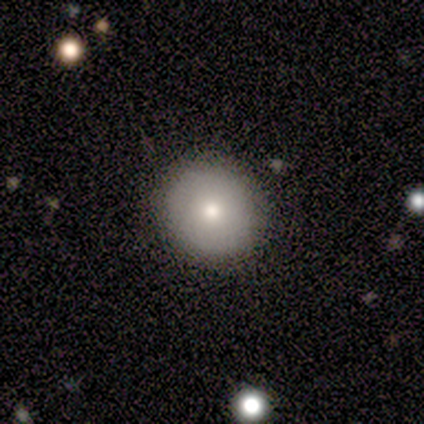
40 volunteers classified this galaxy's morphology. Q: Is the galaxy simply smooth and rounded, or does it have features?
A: smooth — 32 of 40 (80%).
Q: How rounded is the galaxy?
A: round — 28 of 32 (88%).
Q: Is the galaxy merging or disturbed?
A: none — 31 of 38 (82%).